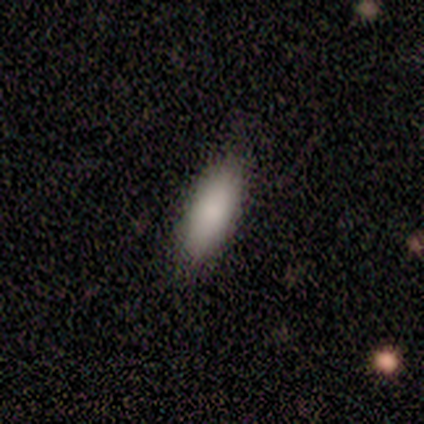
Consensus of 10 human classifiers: This is likely a smooth galaxy (70%). How rounded: possibly cigar-shaped (57%). Merging: likely none (78%).